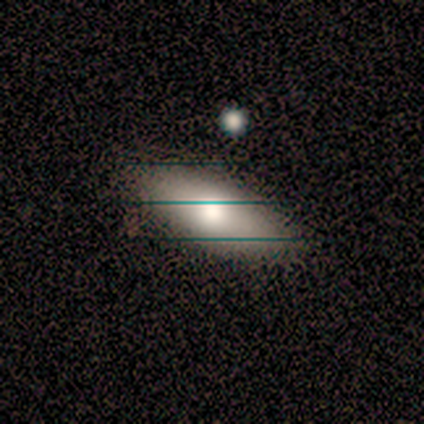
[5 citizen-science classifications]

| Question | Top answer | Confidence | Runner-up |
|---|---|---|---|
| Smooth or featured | smooth | 40% | tied: star or artifact (40%) |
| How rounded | in between | 50% | tied: cigar-shaped (50%) |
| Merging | none | 100% | — |